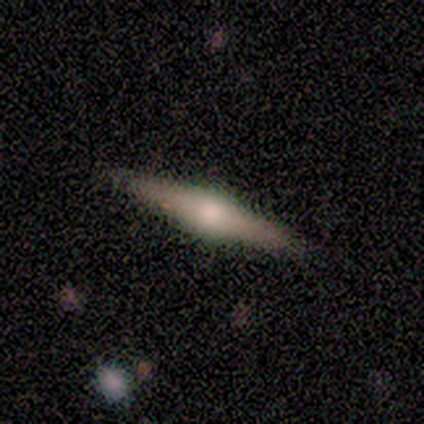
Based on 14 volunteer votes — smooth_or_featured: featured or disk (p=0.86) [alt: smooth p=0.14]
disk_edge_on: yes (p=1.00)
edge_on_bulge: rounded (p=0.92) [alt: boxy p=0.08]
merging: none (p=0.93) [alt: merger p=0.07]